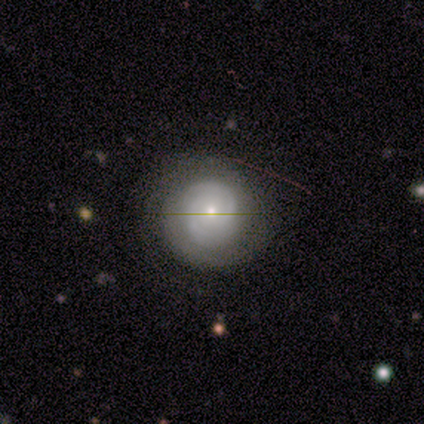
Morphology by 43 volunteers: Smooth or featured? 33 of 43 (77%) said featured or disk. Edge-on disk? 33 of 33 (100%) said no. Bar? 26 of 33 (79%) said no. Spiral arms? 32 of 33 (97%) said yes. Spiral winding? 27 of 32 (84%) said tight. Spiral arm count? 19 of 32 (59%) said 2. Bulge size? 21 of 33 (64%) said small. Merging? 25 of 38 (66%) said none.